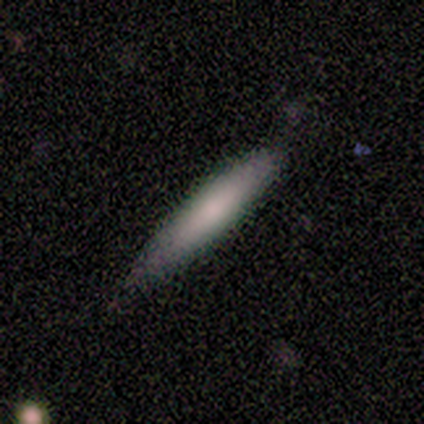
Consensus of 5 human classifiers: This appears to be a smooth galaxy with no disk features (80%) that is cigar-shaped (100%). Merging: none (100%).